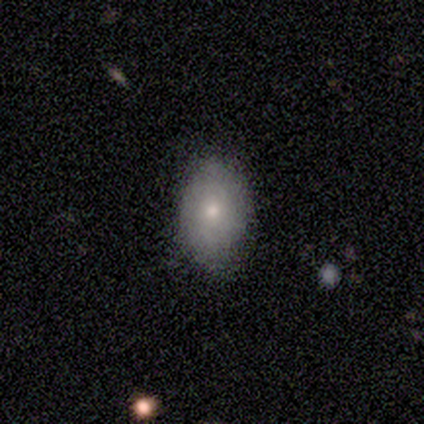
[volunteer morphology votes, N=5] Smooth or featured: smooth — 100%
How rounded: in between — 60% (round — 40%)
Merging: none — 60% (minor disturbance — 40%)